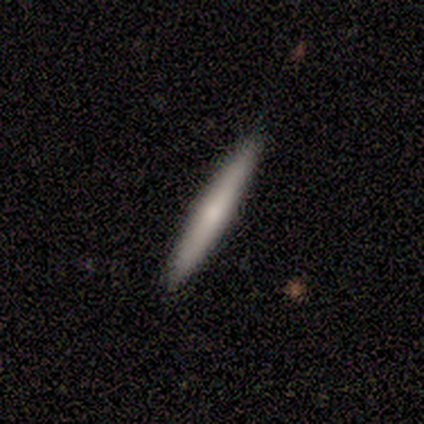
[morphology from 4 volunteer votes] smooth 75%, featured or disk 25%, star or artifact 0%. Down the decision tree: how rounded — cigar-shaped (100%); merging — none (75%).